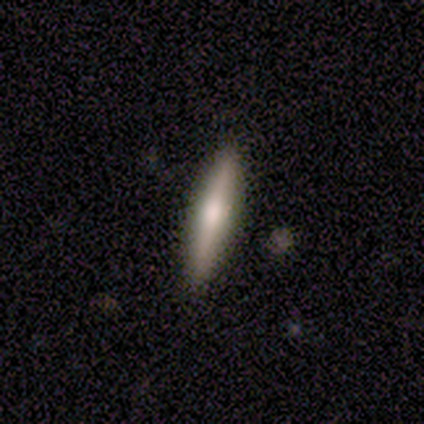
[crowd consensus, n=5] Smooth or featured: featured or disk — 60% (smooth — 40%)
Edge-on disk: yes — 100%
Edge-on bulge: rounded — 100%
Merging: none — 100%